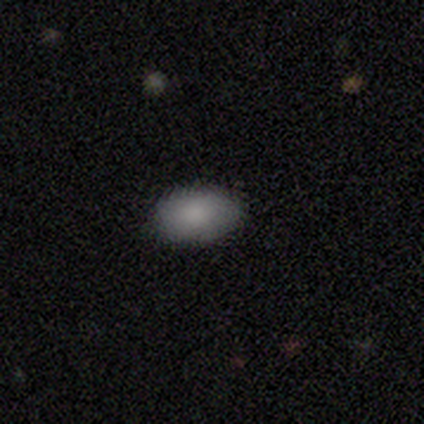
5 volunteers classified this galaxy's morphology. smooth_or_featured: smooth (p=1.00)
how_rounded: in between (p=1.00)
merging: none (p=1.00)